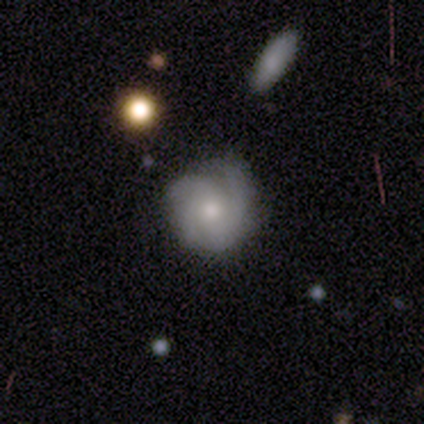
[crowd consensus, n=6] This is possibly a smooth galaxy (50%). How rounded: clearly round (100%). Merging: clearly none (80%).